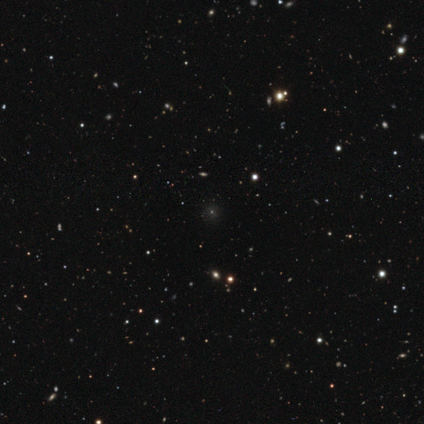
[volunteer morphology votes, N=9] A star or artifact, not a galaxy (67%).

Vote fractions:
- Smooth or featured? star or artifact: 67% / smooth: 22% / featured or disk: 11%